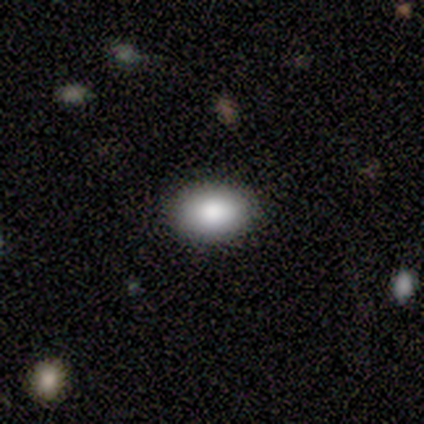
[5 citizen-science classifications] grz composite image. It shows a smooth galaxy with no disk features (80%) that is in between round and cigar-shaped (100%). Merging: none (80%).